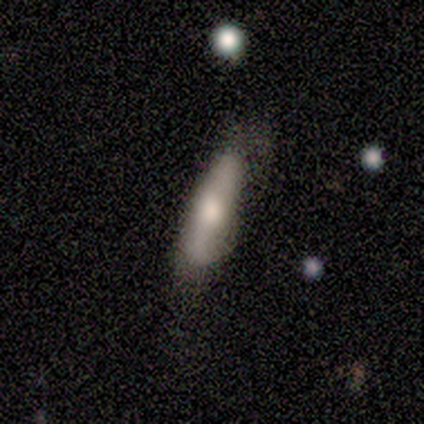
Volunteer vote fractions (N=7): This is possibly a smooth galaxy (57%). How rounded: likely cigar-shaped (75%). Merging: possibly none (57%).